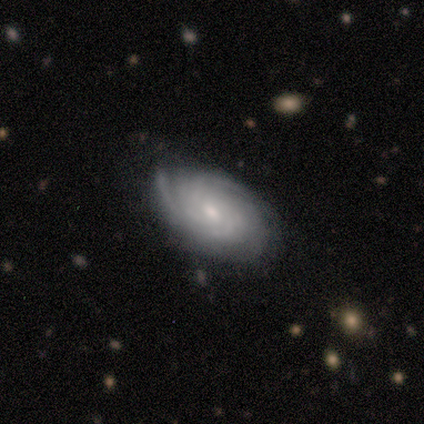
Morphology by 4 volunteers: Smooth or featured?
  - featured or disk: 75% *
  - smooth: 25%
  - star or artifact: 0%
Edge-on disk?
  - no: 100% *
  - yes: 0%
Bar?
  - no: 100% *
  - strong: 0%
  - weak: 0%
Spiral arms?
  - yes: 100% *
  - no: 0%
Spiral winding?
  - tight: 100% *
  - medium: 0%
  - loose: 0%
Spiral arm count?
  - can't tell: 100% *
  - 1: 0%
  - 2: 0%
  - 3: 0%
  - 4: 0%
  - more than 4: 0%
Bulge size?
  - moderate: 100% *
  - dominant: 0%
  - large: 0%
  - small: 0%
  - none: 0%
Merging?
  - minor disturbance: 100% *
  - none: 0%
  - major disturbance: 0%
  - merger: 0%